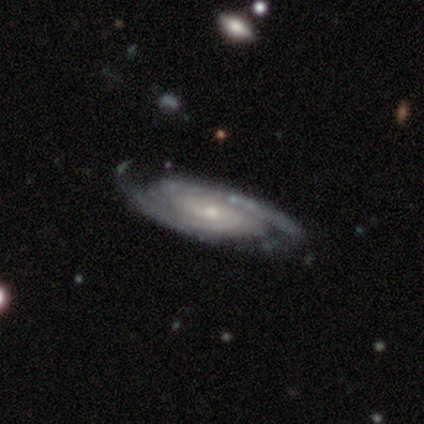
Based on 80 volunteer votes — smooth-or-featured: featured or disk: 99% | smooth: 1% | star or artifact: 0%
  disk-edge-on: no: 97% | yes: 3%
    bar: no: 64% | weak: 23% | strong: 13%
    has-spiral-arms: yes: 100% | no: 0%
      spiral-winding: tight: 68% | medium: 25% | loose: 8%
      spiral-arm-count: 2: 66% | can't tell: 25% | 3: 6% | 4: 3% | 1: 0% | more than 4: 0%
    bulge-size: small: 74% | moderate: 19% | none: 4% | large: 3% | dominant: 0%
  merging: none: 39% | minor disturbance: 19% | major disturbance: 1% | merger: 1%